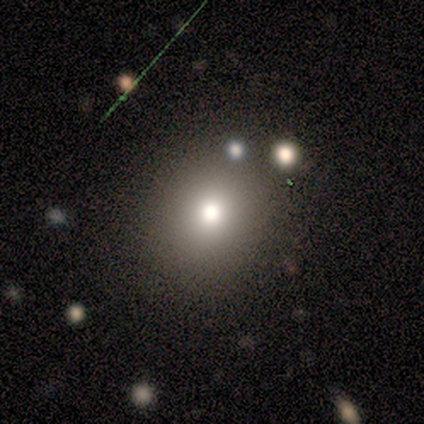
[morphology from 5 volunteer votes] This is clearly a smooth galaxy (100%). How rounded: clearly round (100%). Merging: clearly none (100%).